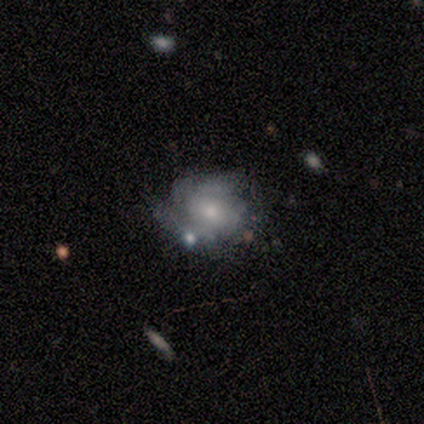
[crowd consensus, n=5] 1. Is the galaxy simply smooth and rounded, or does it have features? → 80% featured or disk, 20% smooth, 0% star or artifact.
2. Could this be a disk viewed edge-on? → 75% no, 25% yes.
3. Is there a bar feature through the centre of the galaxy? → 100% no, 0% strong, 0% weak.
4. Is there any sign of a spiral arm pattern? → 67% no, 33% yes.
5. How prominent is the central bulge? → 67% small, 33% moderate, 0% dominant, 0% large, 0% none.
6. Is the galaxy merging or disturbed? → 80% none, 20% minor disturbance, 0% major disturbance, 0% merger.